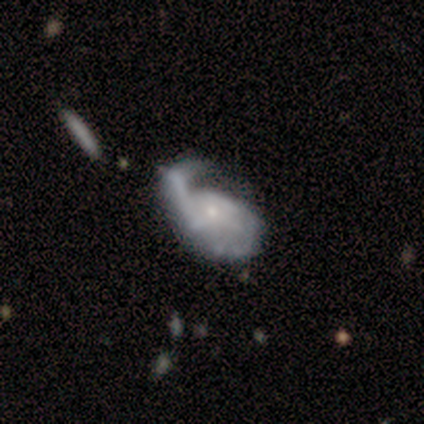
A featured or disk galaxy (78%) with no bar (71%), 2 (44%) medium (63%) spiral arms (96%) and a small central bulge (68%).

Vote fractions:
- Smooth or featured? featured or disk: 78% / smooth: 12% / star or artifact: 10%
- Edge-on disk? no: 90% / yes: 10%
- Bar? no: 71% / weak: 25% / strong: 4%
- Spiral arms? yes: 96% / no: 4%
- Spiral winding? medium: 63% / tight: 22% / loose: 15%
- Spiral arm count? 2: 44% / 1: 33% / can't tell: 22% / 3: 0% / 4: 0% / more than 4: 0%
- Bulge size? small: 68% / moderate: 25% / none: 7% / dominant: 0% / large: 0%
- Merging? minor disturbance: 36% / major disturbance: 31% / none: 25% / merger: 8%